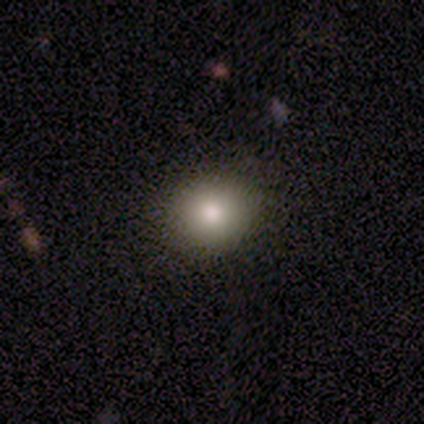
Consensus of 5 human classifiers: This is likely a smooth galaxy (60%). How rounded: likely in between (67%). Merging: clearly none (80%).